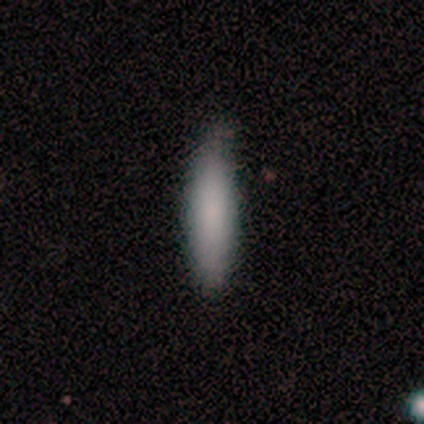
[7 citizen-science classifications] Morphology: type=smooth (86%); roundness=cigar-shaped (100%); merging=none (100%).